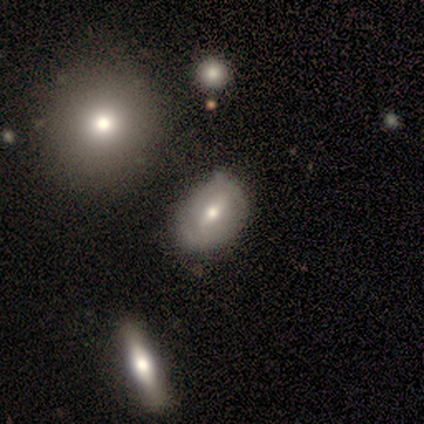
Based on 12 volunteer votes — Smooth or featured: smooth — 58% (featured or disk — 33%)
How rounded: in between — 86% (round — 14%)
Merging: none — 91% (major disturbance — 9%)